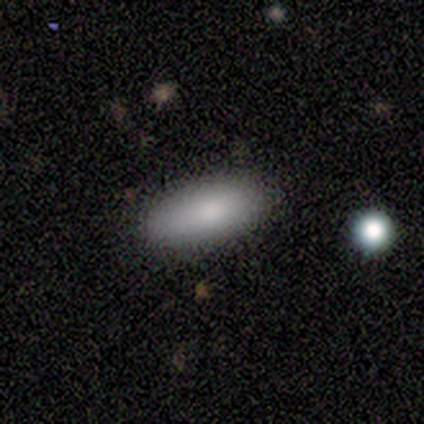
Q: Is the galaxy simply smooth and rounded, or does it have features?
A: smooth — 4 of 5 (80%).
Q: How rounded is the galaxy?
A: in between — 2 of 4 (50%, tied with cigar-shaped).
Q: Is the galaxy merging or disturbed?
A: none — 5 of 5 (100%).